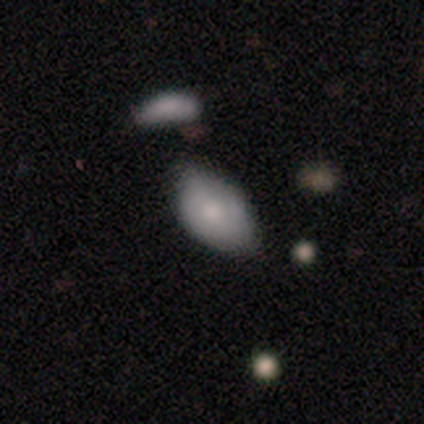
Smooth or featured: smooth — 71% (featured or disk — 20%)
How rounded: in between — 96% (round — 4%)
Merging: none — 50% (minor disturbance — 34%)